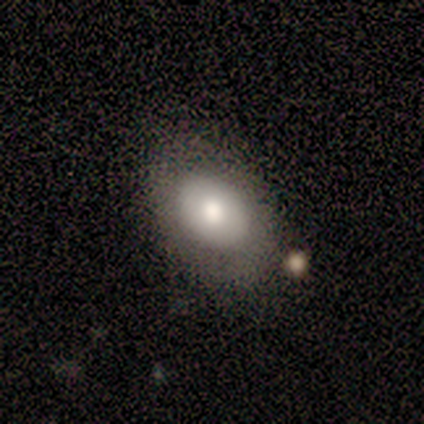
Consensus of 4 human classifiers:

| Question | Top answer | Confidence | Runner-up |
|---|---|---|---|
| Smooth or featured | smooth | 75% | featured or disk (25%) |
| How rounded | in between | 100% | — |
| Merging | none | 100% | — |